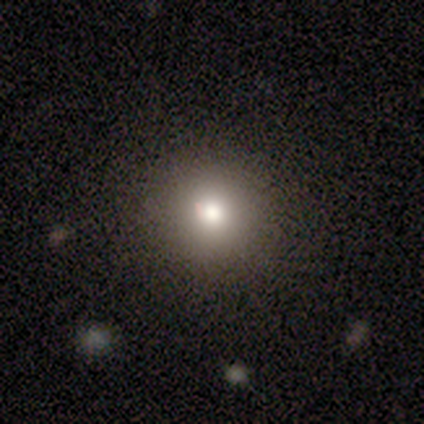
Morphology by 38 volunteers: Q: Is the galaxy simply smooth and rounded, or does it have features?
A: smooth — 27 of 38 (71%).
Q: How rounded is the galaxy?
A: round — 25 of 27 (93%).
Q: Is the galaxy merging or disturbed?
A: none — 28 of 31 (90%).